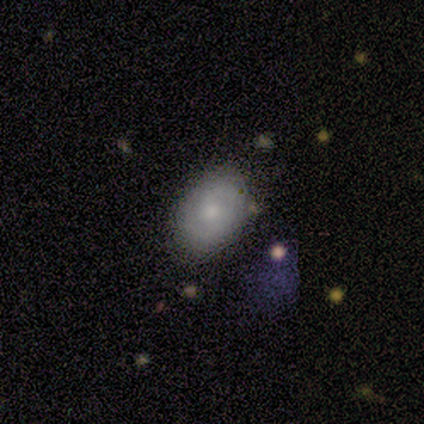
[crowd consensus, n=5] smooth_or_featured: smooth (p=0.60) [alt: featured or disk p=0.40]
how_rounded: in between (p=1.00)
merging: none (p=0.80) [alt: minor disturbance p=0.20]